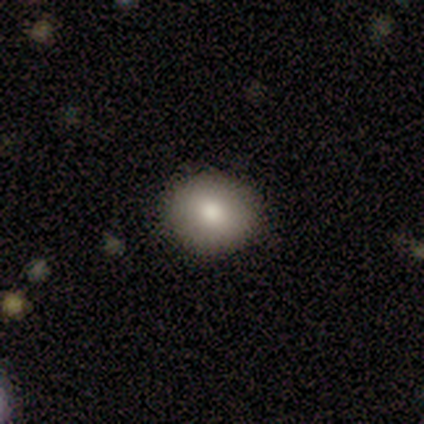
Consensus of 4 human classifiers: smooth 100%, featured or disk 0%, star or artifact 0%. Down the decision tree: how rounded — round (100%); merging — none (100%).